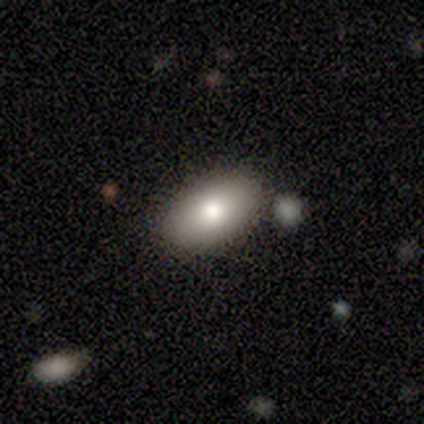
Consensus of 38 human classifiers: smooth 68%, featured or disk 18%, star or artifact 13%. Down the decision tree: how rounded — in between (92%); merging — none (85%).